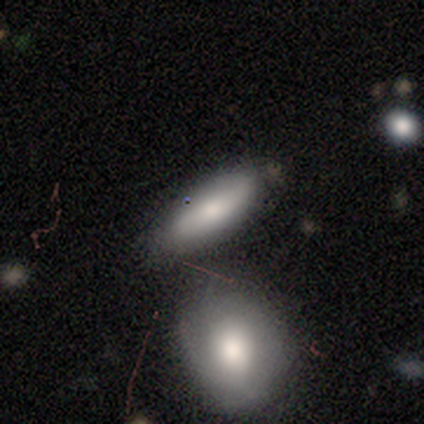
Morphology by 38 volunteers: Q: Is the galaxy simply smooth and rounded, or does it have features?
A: smooth — 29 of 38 (76%).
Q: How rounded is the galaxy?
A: in between — 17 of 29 (59%).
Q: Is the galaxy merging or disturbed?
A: none — 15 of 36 (42%).